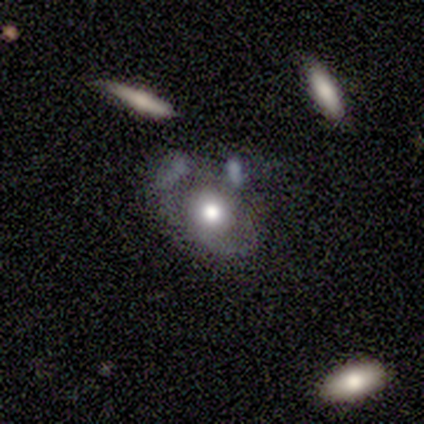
Smooth or featured: featured or disk — 52% (smooth — 35%)
Edge-on disk: no — 95% (yes — 5%)
Bar: no — 85% (weak — 10%)
Spiral arms: no — 70% (yes — 30%)
Bulge size: large — 45% (moderate — 40%)
Merging: none — 46% (minor disturbance — 26%)